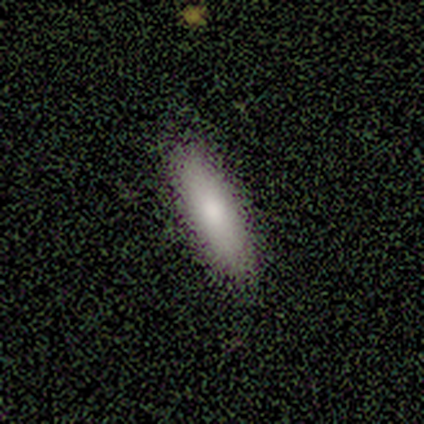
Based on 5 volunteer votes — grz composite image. It shows a smooth galaxy with no disk features (100%) that is in between round and cigar-shaped (60%). Merging: none (80%).